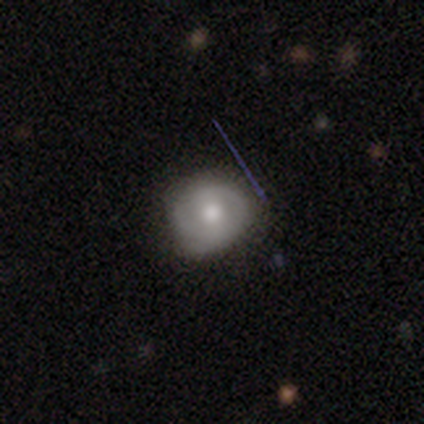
Q: Smooth or featured?
A: smooth (51%); runner-up: featured or disk (37%)
Q: How rounded?
A: round (84%); runner-up: in between (16%)
Q: Merging?
A: none (66%); runner-up: minor disturbance (28%)